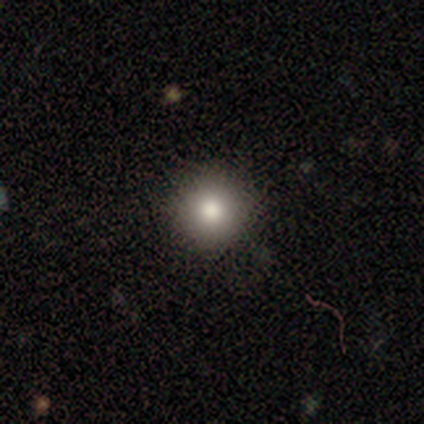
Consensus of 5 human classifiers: This is clearly a smooth galaxy (80%). How rounded: likely round (75%). Merging: clearly none (100%).